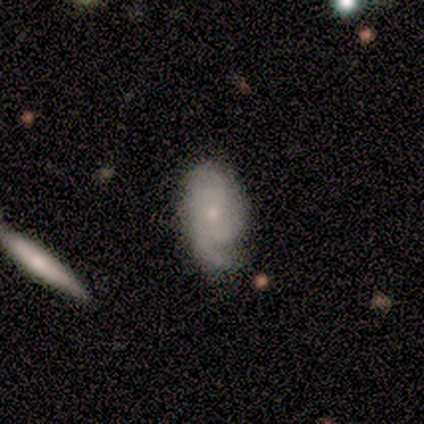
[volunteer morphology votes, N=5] featured or disk 60%, smooth 40%, star or artifact 0%. Down the decision tree: edge-on disk — no (100%); bar — weak (67%); spiral arms — yes (100%); spiral arm count — 1 (33%, tied with 2 and 3); spiral winding — medium (67%); bulge size — moderate (67%); merging — none (80%).